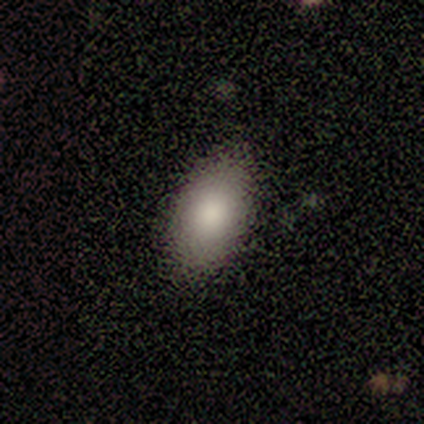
This is clearly a smooth galaxy (100%). How rounded: clearly in between (80%). Merging: clearly none (80%).